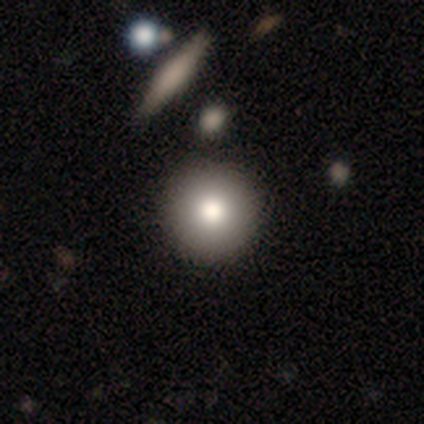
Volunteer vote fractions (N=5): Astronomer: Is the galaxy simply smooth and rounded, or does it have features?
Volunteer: smooth — 100%.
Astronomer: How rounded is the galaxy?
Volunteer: round — 100%.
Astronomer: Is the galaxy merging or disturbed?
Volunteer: none — 60%.